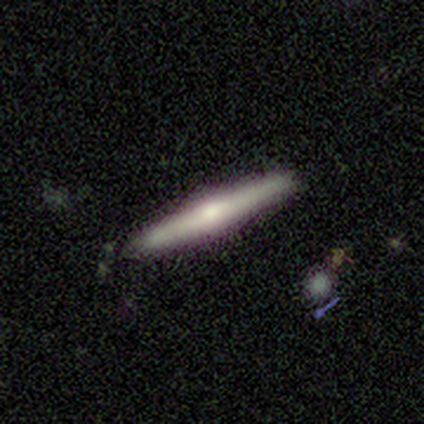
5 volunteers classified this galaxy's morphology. featured or disk 80%, star or artifact 20%, smooth 0%. Down the decision tree: edge-on disk — yes (100%); edge-on bulge — rounded (75%); merging — none (100%).